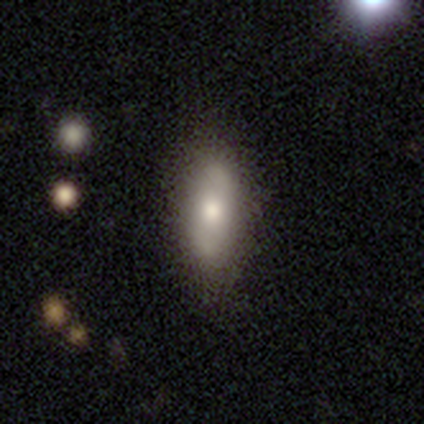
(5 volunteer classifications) Morphology: type=smooth (40%, tied with featured or disk); roundness=cigar-shaped (100%); merging=none (75%).